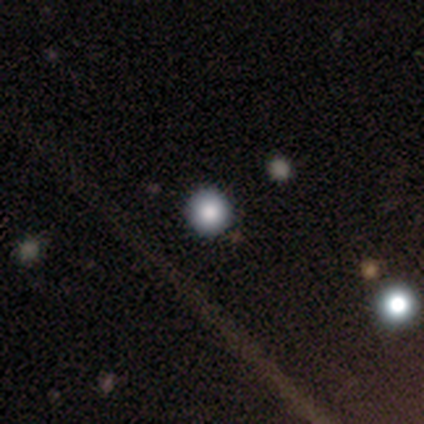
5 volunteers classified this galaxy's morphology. This is clearly a smooth galaxy (80%). How rounded: clearly round (100%). Merging: clearly none (100%).